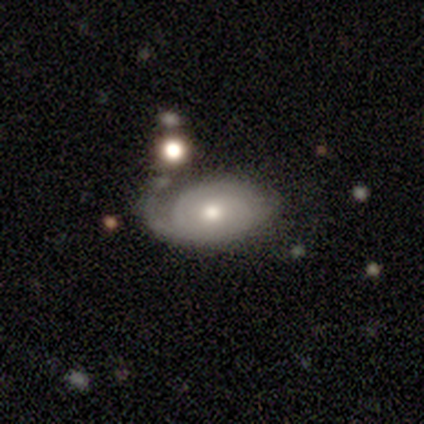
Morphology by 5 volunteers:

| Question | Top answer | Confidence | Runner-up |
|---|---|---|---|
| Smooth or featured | featured or disk | 60% | smooth (40%) |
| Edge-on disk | no | 100% | — |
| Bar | no | 67% | weak (33%) |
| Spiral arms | yes | 67% | no (33%) |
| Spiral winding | tight | 100% | — |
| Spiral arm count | can't tell | 100% | — |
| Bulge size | moderate | 100% | — |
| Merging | minor disturbance | 40% | tied: major disturbance (40%) |